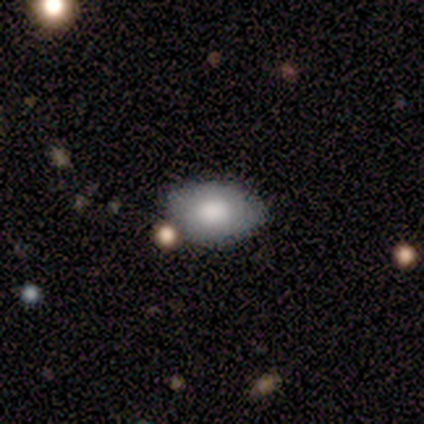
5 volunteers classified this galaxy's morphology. Volunteers were most divided on "smooth or featured": smooth: 80%, star or artifact: 20%, featured or disk: 0%. More confident: how rounded — in between (100%); merging — none (100%).